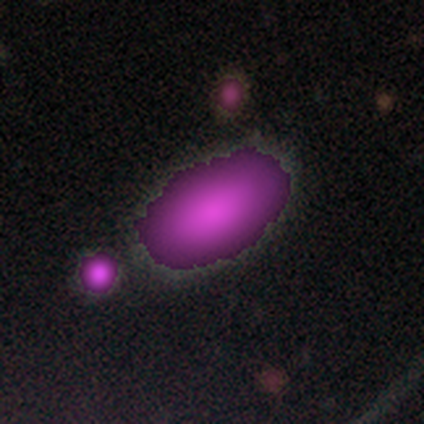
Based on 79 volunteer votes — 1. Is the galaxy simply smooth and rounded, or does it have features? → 59% star or artifact, 29% smooth, 11% featured or disk.